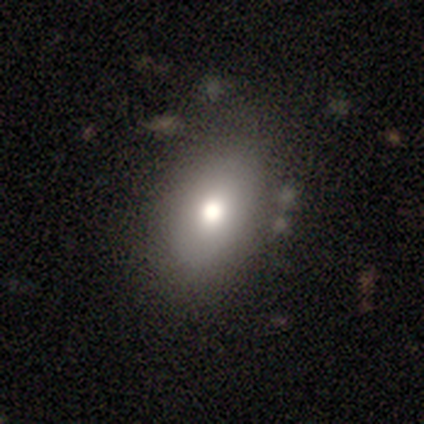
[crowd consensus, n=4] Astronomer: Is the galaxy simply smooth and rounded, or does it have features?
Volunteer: smooth — 100%.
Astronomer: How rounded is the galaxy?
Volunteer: in between — 100%.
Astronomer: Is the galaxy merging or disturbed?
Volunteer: none — 100%.